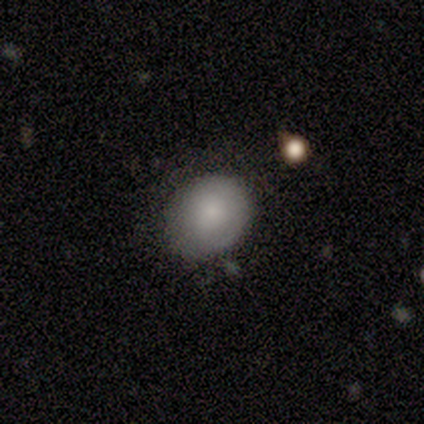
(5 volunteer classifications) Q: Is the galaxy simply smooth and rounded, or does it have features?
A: smooth — 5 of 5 (100%).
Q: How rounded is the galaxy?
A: in between — 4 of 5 (80%).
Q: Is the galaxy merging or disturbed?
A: none — 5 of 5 (100%).